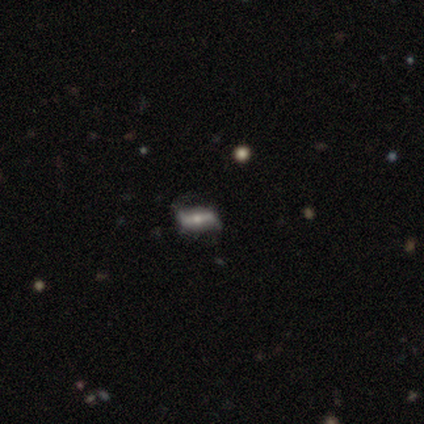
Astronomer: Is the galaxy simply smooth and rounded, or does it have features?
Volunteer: smooth — 40%, tied with featured or disk at 40%.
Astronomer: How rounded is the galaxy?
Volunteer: in between — 100%.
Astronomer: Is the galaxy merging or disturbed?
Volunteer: none — 50%, tied with minor disturbance at 50%.